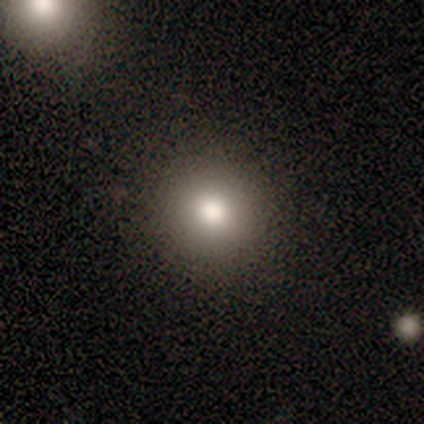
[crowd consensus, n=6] Q: Smooth or featured?
A: smooth (83%); runner-up: featured or disk (17%)
Q: How rounded?
A: round (100%)
Q: Merging?
A: none (100%)